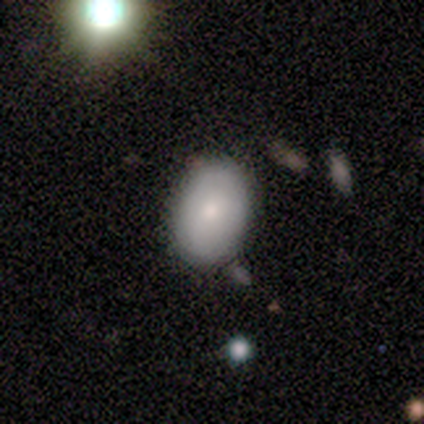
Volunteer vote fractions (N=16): smooth 88%, featured or disk 12%, star or artifact 0%. Down the decision tree: how rounded — in between (64%); merging — none (94%).